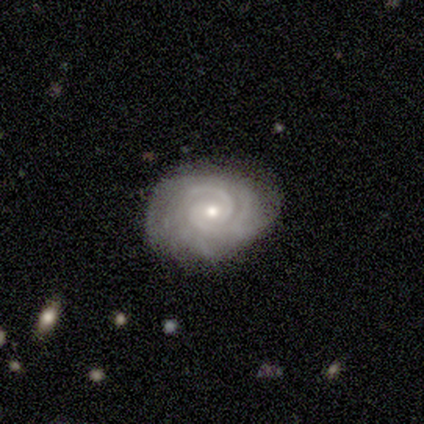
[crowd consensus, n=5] smooth-or-featured: featured or disk: 60% | smooth: 20% | star or artifact: 20%
  disk-edge-on: no: 100% | yes: 0%
    bar: no: 67% | weak: 33% | strong: 0%
    has-spiral-arms: yes: 100% | no: 0%
      spiral-winding: tight: 67% | loose: 33% | medium: 0%
      spiral-arm-count: can't tell: 67% | 3: 33% | 1: 0% | 2: 0% | 4: 0% | more than 4: 0%
    bulge-size: small: 67% | moderate: 33% | dominant: 0% | large: 0% | none: 0%
  merging: none: 100% | minor disturbance: 0% | major disturbance: 0% | merger: 0%